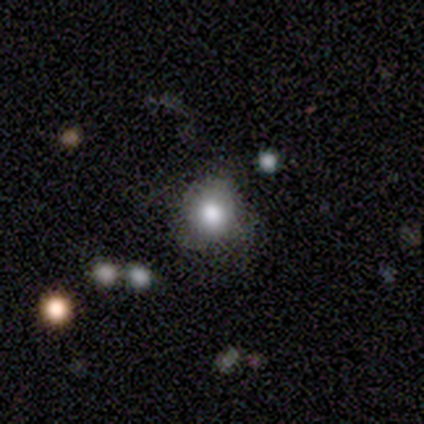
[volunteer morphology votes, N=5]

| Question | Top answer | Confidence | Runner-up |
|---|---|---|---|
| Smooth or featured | smooth | 100% | — |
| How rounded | round | 80% | in between (20%) |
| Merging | none | 60% | minor disturbance (40%) |